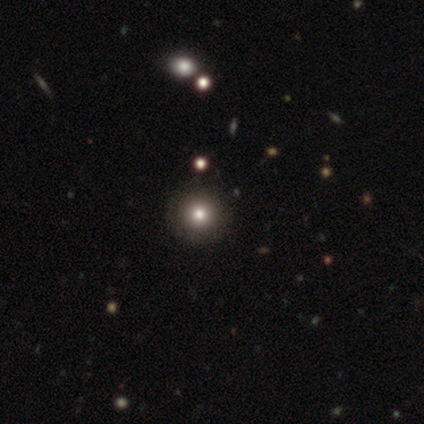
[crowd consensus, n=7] smooth_or_featured: star or artifact (p=0.43) [alt: smooth p=0.29]